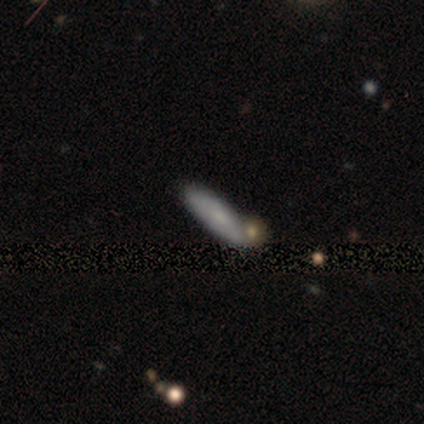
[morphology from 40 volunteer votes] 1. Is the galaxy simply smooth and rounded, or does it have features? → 62% smooth, 28% featured or disk, 10% star or artifact.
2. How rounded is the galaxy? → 48% in between (tied), 48% cigar-shaped (tied), 4% round.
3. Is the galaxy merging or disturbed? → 81% none, 11% minor disturbance, 8% merger, 0% major disturbance.